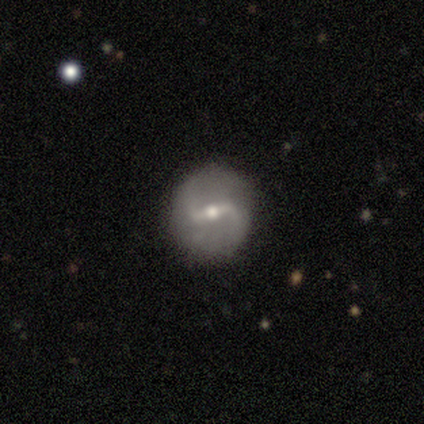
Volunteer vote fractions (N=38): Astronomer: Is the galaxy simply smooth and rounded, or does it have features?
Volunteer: featured or disk — 84%.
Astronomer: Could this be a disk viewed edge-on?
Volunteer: no — 91%.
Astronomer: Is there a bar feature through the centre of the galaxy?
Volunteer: strong — 52% (runner-up: weak, 41%).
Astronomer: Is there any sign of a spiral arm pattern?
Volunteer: yes — 72%.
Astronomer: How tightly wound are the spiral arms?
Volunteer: loose — 67%.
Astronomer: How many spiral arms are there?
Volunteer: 2 — 95%.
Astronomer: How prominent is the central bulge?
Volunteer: small — 52% (runner-up: moderate, 48%).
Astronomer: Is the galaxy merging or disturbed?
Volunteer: none — 85%.